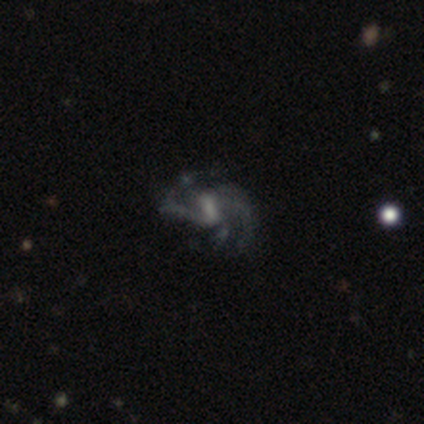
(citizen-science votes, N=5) This appears to be a featured or disk galaxy (100%) with a strong bar (60%), 3 (40%, tied with can't tell) tight (40%, tied with medium) spiral arms (100%) and no central bulge (80%). Merging: none (60%).